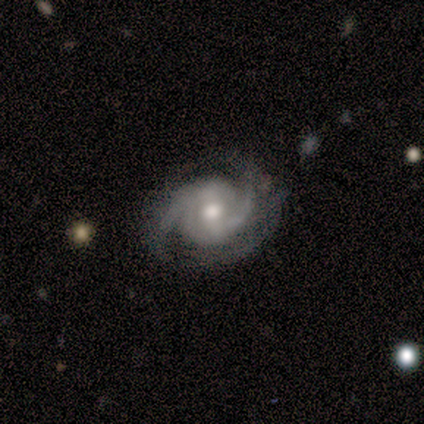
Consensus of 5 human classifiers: This appears to be a featured or disk galaxy (100%) with a weak bar (40%, tied with no), 2 (100%) tight (60%) spiral arms (100%) and a moderate central bulge (60%). Merging: none (60%).